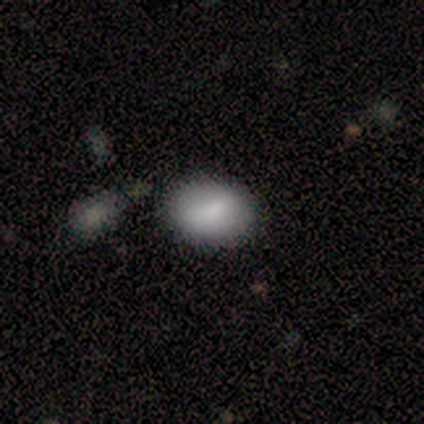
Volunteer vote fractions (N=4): smooth_or_featured: smooth (p=1.00)
how_rounded: in between (p=0.75) [alt: round p=0.25]
merging: minor disturbance (p=0.50) [alt: none p=0.25]